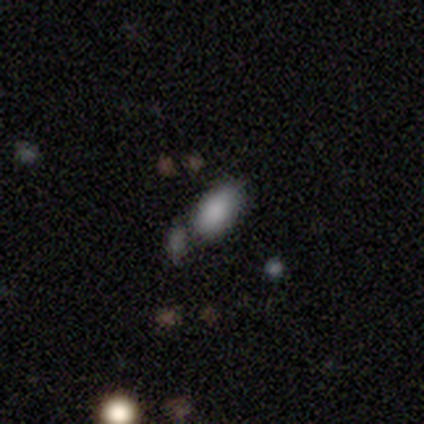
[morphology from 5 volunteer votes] Smooth or featured?
  - smooth: 100% *
  - featured or disk: 0%
  - star or artifact: 0%
How rounded?
  - in between: 100% *
  - round: 0%
  - cigar-shaped: 0%
Merging?
  - none: 60% *
  - major disturbance: 20%
  - merger: 20%
  - minor disturbance: 0%